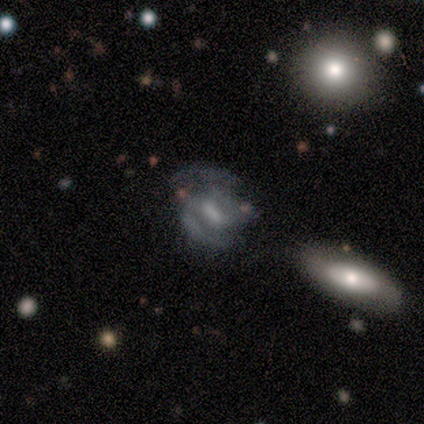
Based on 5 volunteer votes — A featured or disk galaxy (80%) with a weak bar (50%), 2 (67%) medium (67%) spiral arms (75%) and a moderate central bulge (75%). Merging: minor disturbance (50%).